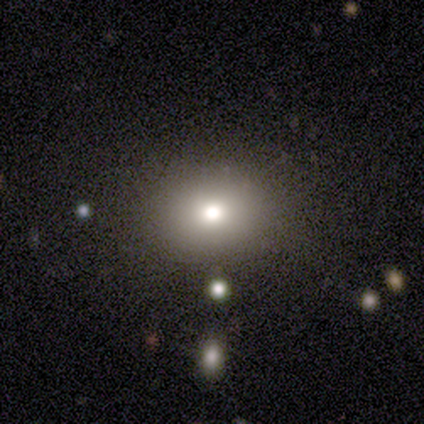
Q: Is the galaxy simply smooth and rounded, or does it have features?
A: smooth — 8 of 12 (67%).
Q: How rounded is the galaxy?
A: round — 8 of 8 (100%).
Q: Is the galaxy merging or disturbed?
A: none — 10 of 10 (100%).